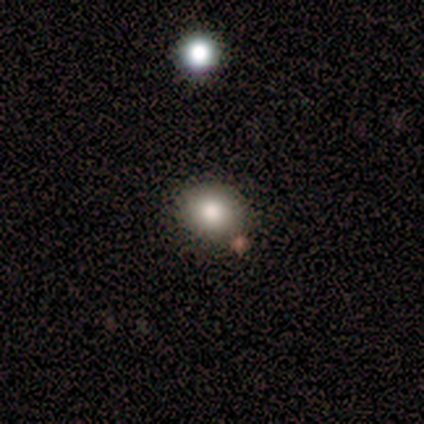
Morphology: type=smooth (83%); roundness=round (80%); merging=none (100%).